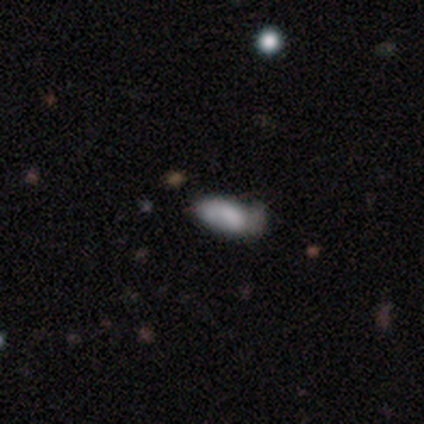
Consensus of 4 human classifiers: Smooth or featured? smooth (50%, tied with featured or disk)
How rounded? in between (100%)
Merging? none (50%, tied with minor disturbance)